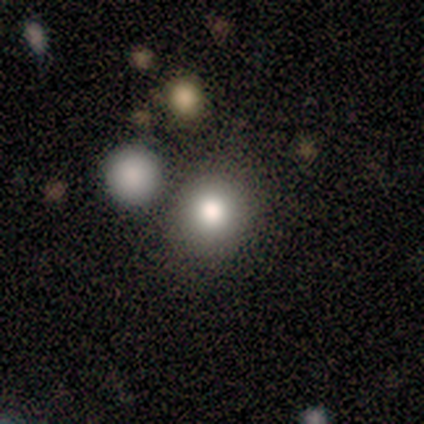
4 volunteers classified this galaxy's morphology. Smooth or featured: smooth — 75% (featured or disk — 25%)
How rounded: round — 67% (in between — 33%)
Merging: none — 75% (minor disturbance — 25%)